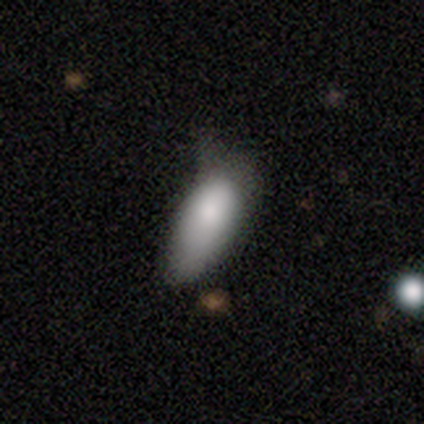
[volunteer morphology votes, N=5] smooth_or_featured: smooth (p=0.60) [alt: featured or disk p=0.20]
how_rounded: in between (p=0.67) [alt: cigar-shaped p=0.33]
merging: minor disturbance (p=0.75) [alt: none p=0.25]